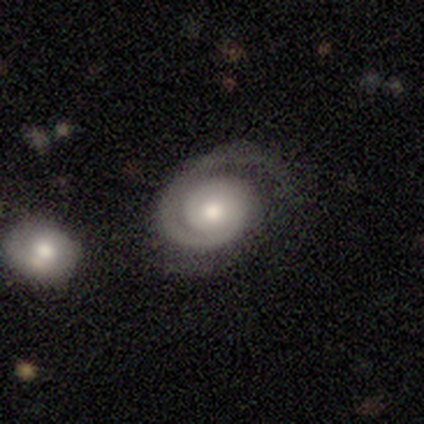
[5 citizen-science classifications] Smooth or featured? 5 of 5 (100%) said featured or disk. Edge-on disk? 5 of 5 (100%) said no. Bar? 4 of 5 (80%) said no. Spiral arms? 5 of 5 (100%) said yes. Spiral winding? 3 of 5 (60%) said tight. Spiral arm count? 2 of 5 (40%, tied with can't tell) said 1. Bulge size? 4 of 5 (80%) said moderate. Merging? 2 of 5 (40%, tied with major disturbance) said minor disturbance.